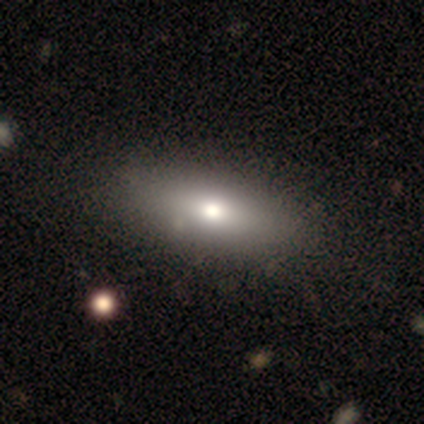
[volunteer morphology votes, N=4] Smooth or featured? 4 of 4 (100%) said smooth. How rounded? 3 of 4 (75%) said in between. Merging? 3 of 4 (75%) said none.